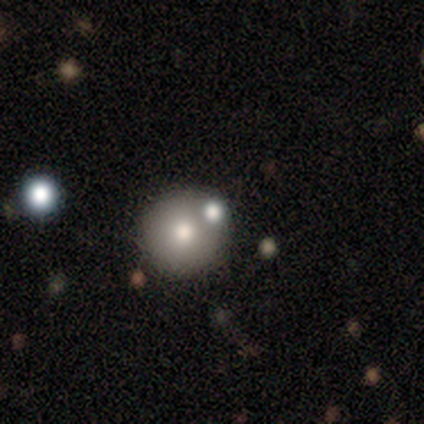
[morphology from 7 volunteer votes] This is possibly a smooth galaxy (57%). How rounded: clearly round (100%). Merging: clearly none (83%).